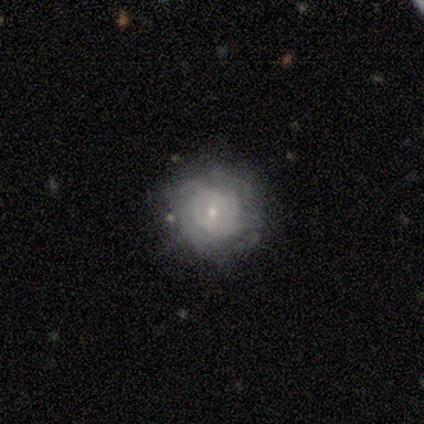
Volunteers were most divided on "smooth or featured": featured or disk: 60%, smooth: 40%, star or artifact: 0%. More confident: edge-on disk — no (100%); spiral arms — yes (100%); merging — none (80%); bar — strong (67%); spiral winding — tight (67%); spiral arm count — can't tell (67%); bulge size — small (67%).